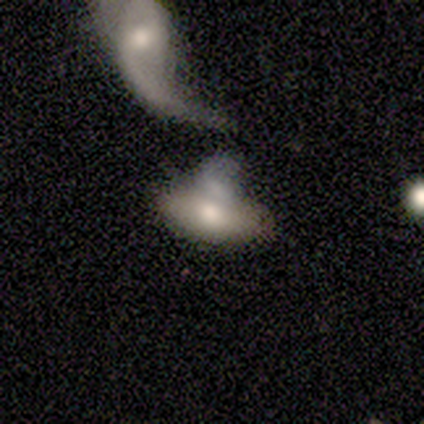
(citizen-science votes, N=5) Smooth or featured? smooth (80%)
How rounded? in between (100%)
Merging? none (40%, tied with merger)